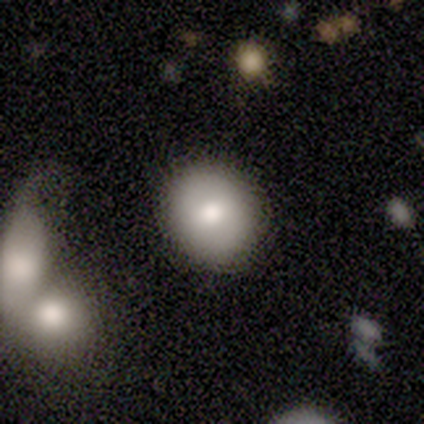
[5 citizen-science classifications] Smooth or featured?
  - smooth: 80% *
  - featured or disk: 20%
  - star or artifact: 0%
How rounded?
  - round: 75% *
  - in between: 25%
  - cigar-shaped: 0%
Merging?
  - none: 80% *
  - minor disturbance: 20%
  - major disturbance: 0%
  - merger: 0%